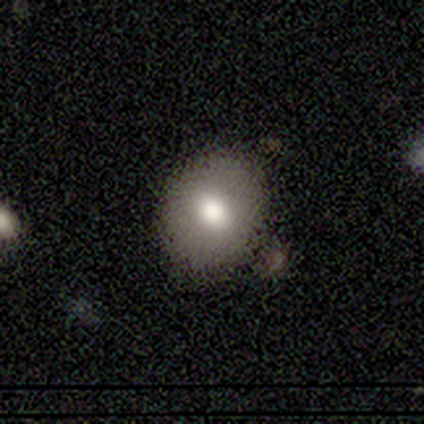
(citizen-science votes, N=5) Smooth or featured: smooth — 60% (featured or disk — 20%)
How rounded: in between — 67% (round — 33%)
Merging: none — 100%